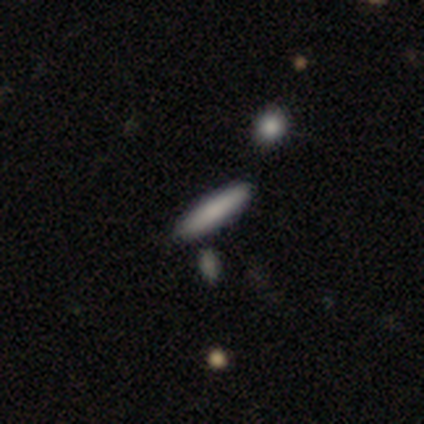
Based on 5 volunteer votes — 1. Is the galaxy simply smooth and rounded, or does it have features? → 100% smooth, 0% featured or disk, 0% star or artifact.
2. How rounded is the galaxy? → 80% cigar-shaped, 20% in between, 0% round.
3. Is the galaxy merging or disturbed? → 80% none, 20% merger, 0% minor disturbance, 0% major disturbance.